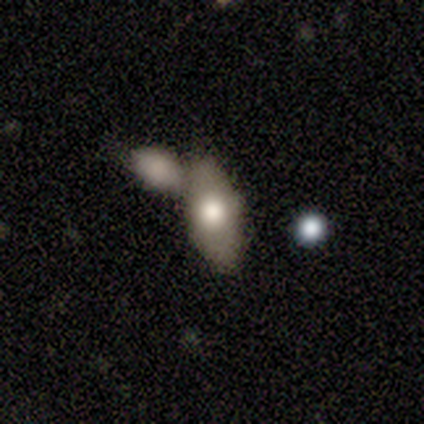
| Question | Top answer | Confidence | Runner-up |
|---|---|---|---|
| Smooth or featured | smooth | 80% | featured or disk (20%) |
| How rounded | in between | 100% | — |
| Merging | none | 60% | merger (40%) |